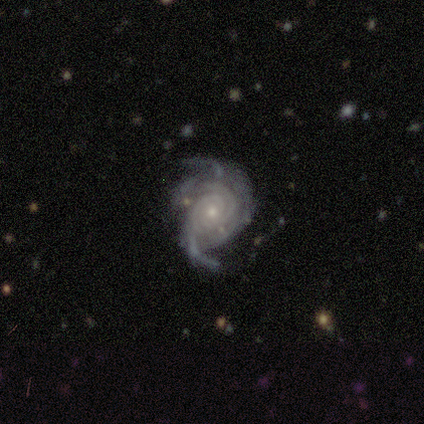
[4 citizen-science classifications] Smooth or featured? featured or disk (100%)
Edge-on disk? no (100%)
Bar? no (75%)
Spiral arms? yes (100%)
Spiral winding? tight (75%)
Spiral arm count? 2 (25%, tied with 3, 4 and can't tell)
Bulge size? moderate (50%, tied with small)
Merging? none (75%)